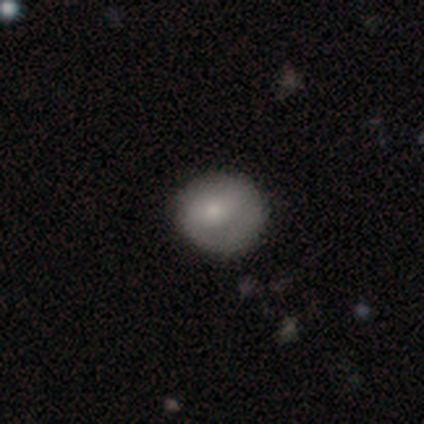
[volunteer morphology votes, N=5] type=smooth (100%); roundness=round (80%); merging=none (80%).